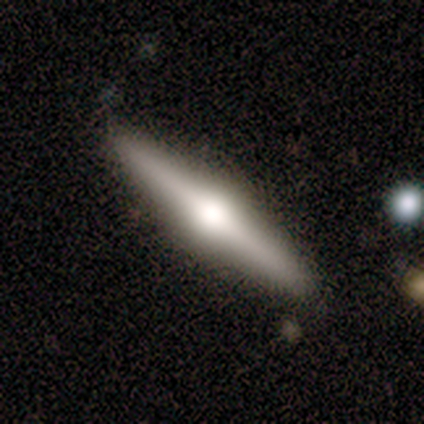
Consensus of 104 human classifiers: A featured or disk galaxy (80%) viewed edge-on (99%) with a rounded central bulge (98%).

Vote fractions:
- Smooth or featured? featured or disk: 80% / smooth: 18% / star or artifact: 2%
- Edge-on disk? yes: 99% / no: 1%
- Edge-on bulge? rounded: 98% / boxy: 2% / none: 0%
- Merging? none: 91% / minor disturbance: 6% / major disturbance: 2% / merger: 1%